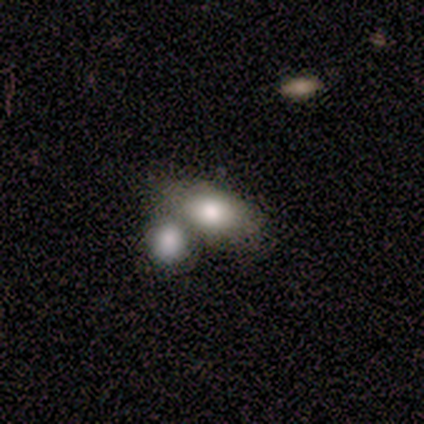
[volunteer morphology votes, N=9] smooth_or_featured: smooth (p=0.89) [alt: featured or disk p=0.11]
how_rounded: in between (p=1.00)
merging: none (p=0.44) [alt: merger p=0.33]